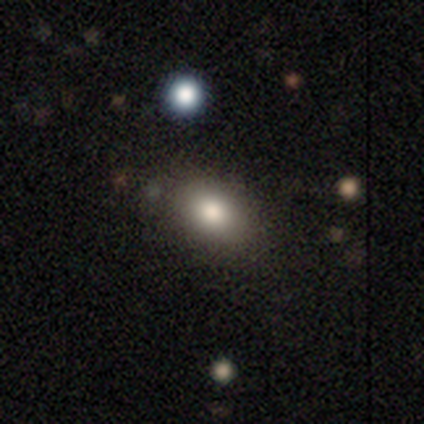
A smooth galaxy with no disk features (80%) that is in between round and cigar-shaped (81%).

Vote fractions:
- Smooth or featured? smooth: 80% / star or artifact: 12% / featured or disk: 8%
- How rounded? in between: 81% / round: 19% / cigar-shaped: 0%
- Merging? none: 89% / merger: 6% / minor disturbance: 3% / major disturbance: 3%